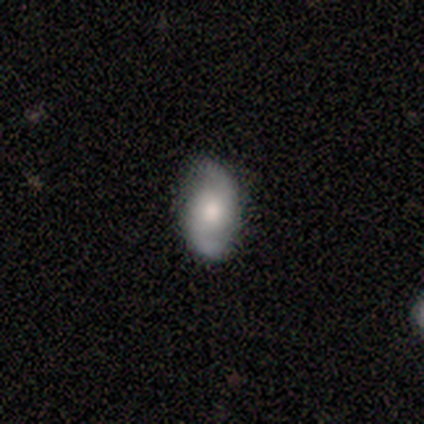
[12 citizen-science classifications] featured or disk 83%, smooth 17%, star or artifact 0%. Down the decision tree: edge-on disk — no (100%); bar — no (70%); spiral arms — yes (100%); spiral arm count — 2 (100%); spiral winding — loose (80%); bulge size — moderate (70%); merging — none (83%).